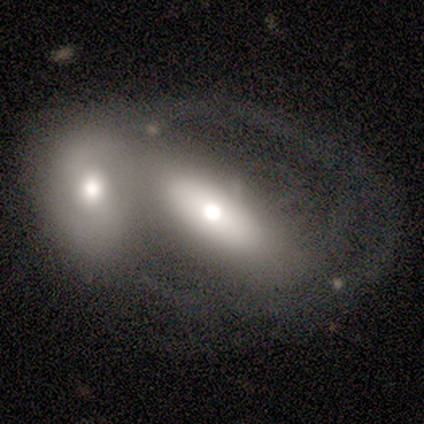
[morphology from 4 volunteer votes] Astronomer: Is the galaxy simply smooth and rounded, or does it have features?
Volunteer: featured or disk — 75%.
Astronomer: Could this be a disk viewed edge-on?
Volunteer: no — 100%.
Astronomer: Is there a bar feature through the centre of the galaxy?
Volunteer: no — 67%.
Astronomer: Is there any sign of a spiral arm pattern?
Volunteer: no — 100%.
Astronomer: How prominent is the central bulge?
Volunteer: large — 67%.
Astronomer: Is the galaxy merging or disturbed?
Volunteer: merger — 75%.